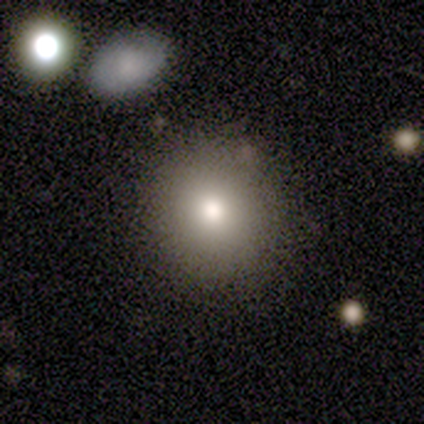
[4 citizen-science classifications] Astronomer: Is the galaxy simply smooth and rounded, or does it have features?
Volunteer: smooth — 100%.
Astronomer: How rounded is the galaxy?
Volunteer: round — 100%.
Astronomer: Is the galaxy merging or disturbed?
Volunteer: none — 100%.